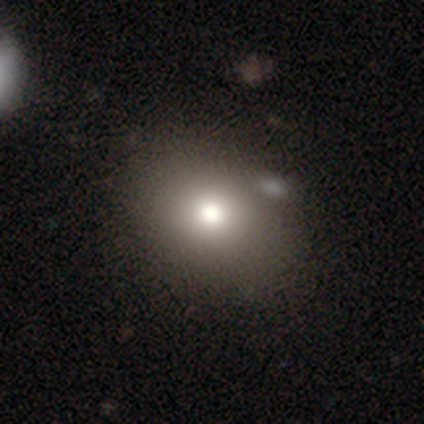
Q: Smooth or featured?
A: smooth (83%); runner-up: featured or disk (8%)
Q: How rounded?
A: in between (60%); runner-up: round (30%)
Q: Merging?
A: none (64%); runner-up: minor disturbance (36%)